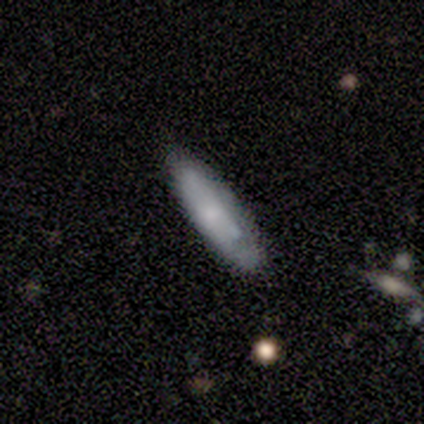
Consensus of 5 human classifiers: This is likely a smooth galaxy (60%). How rounded: likely in between (67%). Merging: clearly none (100%).